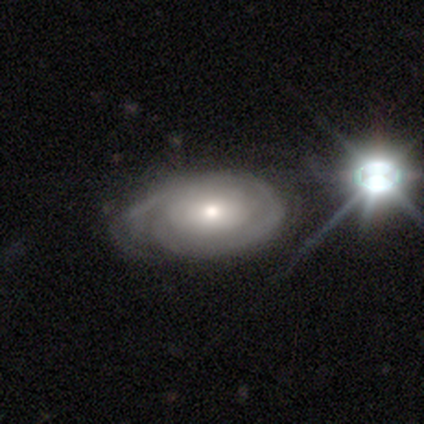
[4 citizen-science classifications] This appears to be a featured or disk galaxy (75%) with no bar (100%), 2 (50%, tied with can't tell) tight (100%) spiral arms (67%) and a moderate central bulge (67%). Merging: none (75%).